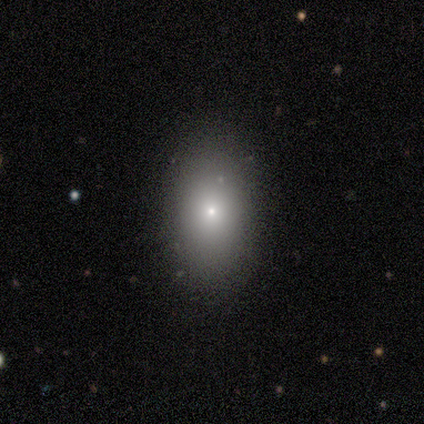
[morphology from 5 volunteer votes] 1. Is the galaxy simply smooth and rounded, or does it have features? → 60% smooth, 40% star or artifact, 0% featured or disk.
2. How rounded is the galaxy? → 67% in between, 33% cigar-shaped, 0% round.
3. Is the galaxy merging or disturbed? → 67% none, 33% minor disturbance, 0% major disturbance, 0% merger.